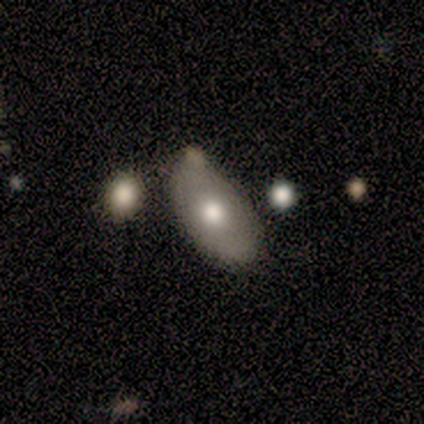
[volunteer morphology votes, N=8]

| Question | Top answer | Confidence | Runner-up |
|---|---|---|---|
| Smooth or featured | smooth | 50% | featured or disk (38%) |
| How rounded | in between | 75% | round (25%) |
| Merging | none | 71% | minor disturbance (29%) |